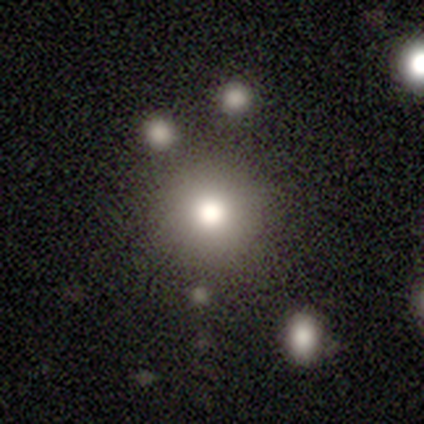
A smooth galaxy with no disk features (84%) that is round (97%).

Vote fractions:
- Smooth or featured? smooth: 84% / star or artifact: 10% / featured or disk: 6%
- How rounded? round: 97% / cigar-shaped: 3% / in between: 0%
- Merging? none: 46% / merger: 8% / minor disturbance: 1% / major disturbance: 1%